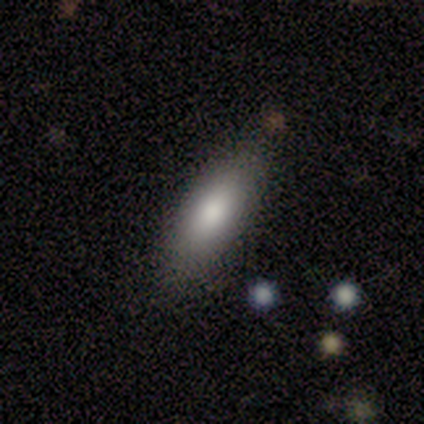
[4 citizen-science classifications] Q: Smooth or featured?
A: smooth (50%); tied with: star or artifact (50%)
Q: How rounded?
A: in between (50%); tied with: cigar-shaped (50%)
Q: Merging?
A: none (100%)